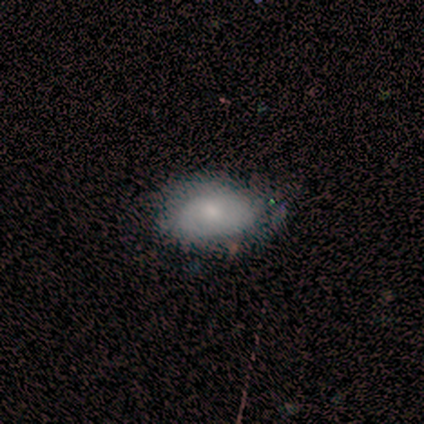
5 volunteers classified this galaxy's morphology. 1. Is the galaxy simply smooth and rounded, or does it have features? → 60% smooth, 40% featured or disk, 0% star or artifact.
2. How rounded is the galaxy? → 67% in between, 33% round, 0% cigar-shaped.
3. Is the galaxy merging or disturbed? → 80% none, 20% minor disturbance, 0% major disturbance, 0% merger.